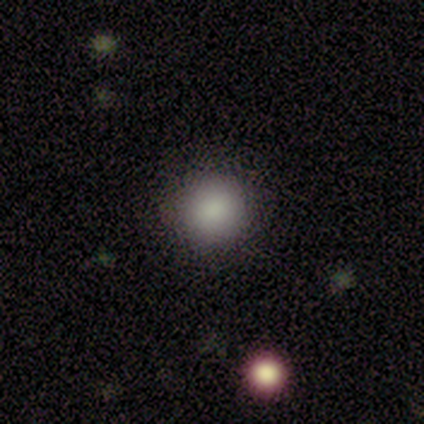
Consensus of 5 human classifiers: A smooth galaxy with no disk features (80%) that is round (75%).

Vote fractions:
- Smooth or featured? smooth: 80% / star or artifact: 20% / featured or disk: 0%
- How rounded? round: 75% / in between: 25% / cigar-shaped: 0%
- Merging? none: 75% / minor disturbance: 25% / major disturbance: 0% / merger: 0%